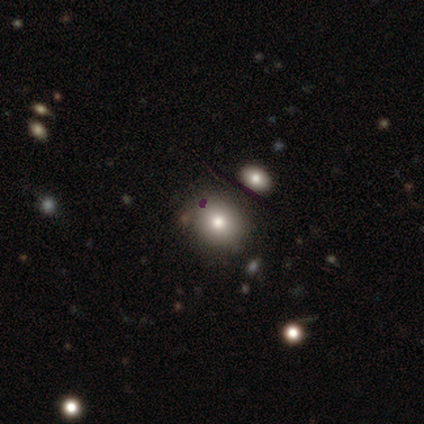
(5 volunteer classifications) Volunteers were most divided on "smooth or featured": smooth: 80%, featured or disk: 20%, star or artifact: 0%. More confident: how rounded — round (100%); merging — none (100%).